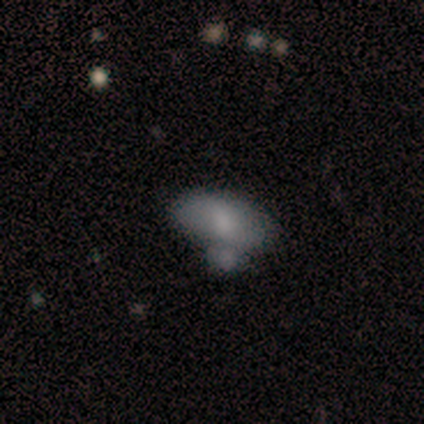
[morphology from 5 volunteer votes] Q: Smooth or featured?
A: featured or disk (60%); runner-up: smooth (40%)
Q: Edge-on disk?
A: no (100%)
Q: Bar?
A: no (67%); runner-up: weak (33%)
Q: Spiral arms?
A: no (67%); runner-up: yes (33%)
Q: Bulge size?
A: large (33%); tied with: moderate (33%); small (33%)
Q: Merging?
A: merger (60%); runner-up: none (20%)